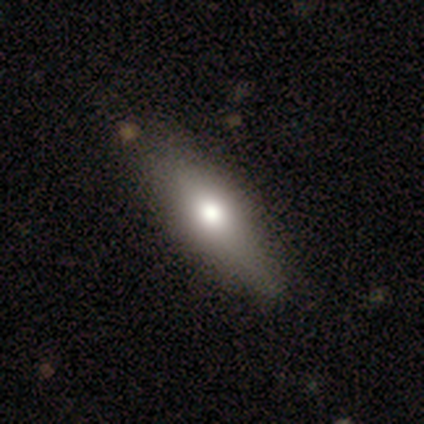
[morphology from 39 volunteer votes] smooth-or-featured: smooth: 64% | featured or disk: 36% | star or artifact: 0%
  how-rounded: cigar-shaped: 52% | in between: 48% | round: 0%
  merging: none: 85% | minor disturbance: 10% | major disturbance: 3% | merger: 3%